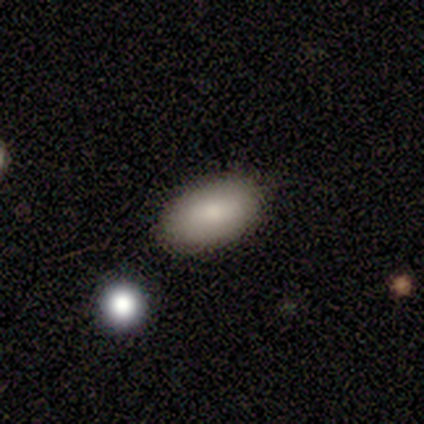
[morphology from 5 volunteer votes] A smooth galaxy with no disk features (100%) that is in between round and cigar-shaped (100%). Merging: none (100%).